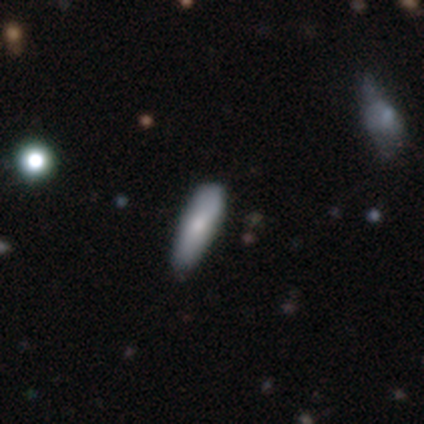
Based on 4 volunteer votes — Morphology: type=smooth (100%); roundness=in between (50%, tied with cigar-shaped); merging=minor disturbance (50%).